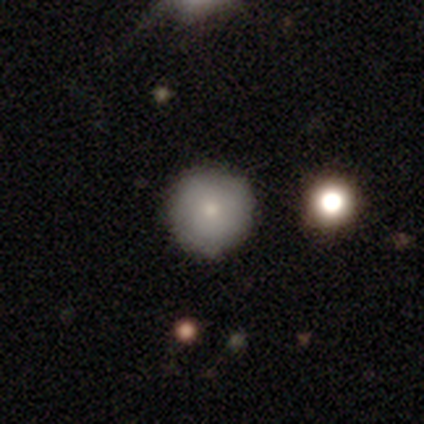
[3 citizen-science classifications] smooth_or_featured: smooth (p=1.00)
how_rounded: round (p=1.00)
merging: none (p=1.00)